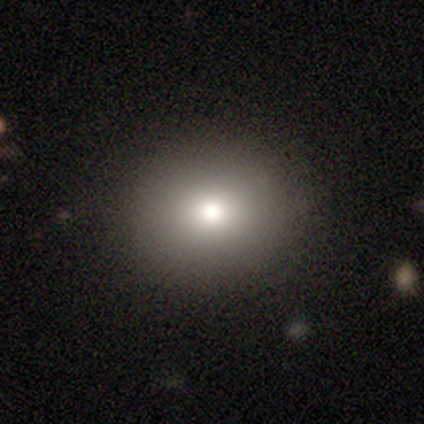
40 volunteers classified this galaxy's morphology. This appears to be a smooth galaxy with no disk features (62%) that is round (84%). Merging: none (97%).